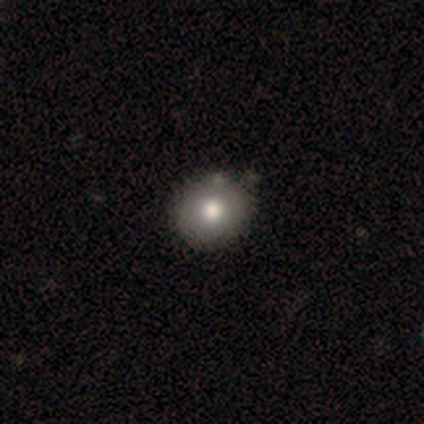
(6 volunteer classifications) Overall: smooth (83%). How rounded: round (100%). Merging: none (100%).